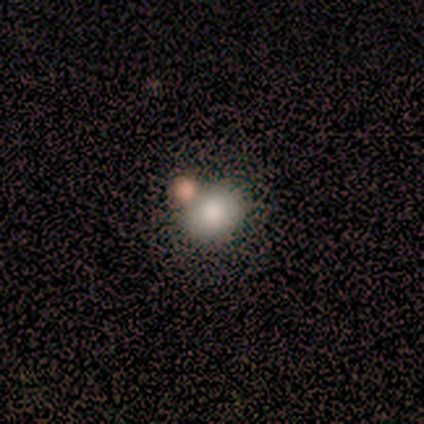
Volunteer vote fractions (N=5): Overall: smooth (80%). How rounded: round (100%). Merging: none (60%; minor disturbance 20%).